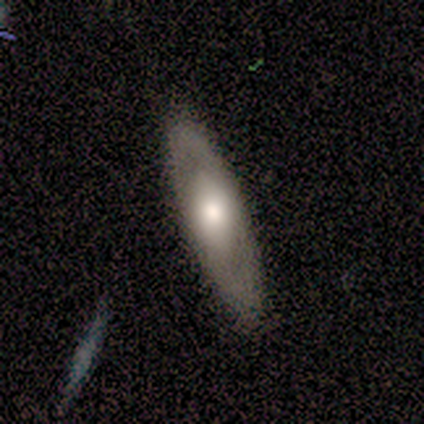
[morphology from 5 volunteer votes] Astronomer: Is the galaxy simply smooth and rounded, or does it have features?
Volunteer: featured or disk — 80%.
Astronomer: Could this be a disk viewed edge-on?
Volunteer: no — 100%.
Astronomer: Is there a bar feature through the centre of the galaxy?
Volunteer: no — 100%.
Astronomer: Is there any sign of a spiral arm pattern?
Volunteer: no — 100%.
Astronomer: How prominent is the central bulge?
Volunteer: large — 50%, tied with moderate at 50%.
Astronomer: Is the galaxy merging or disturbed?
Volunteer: none — 80%.